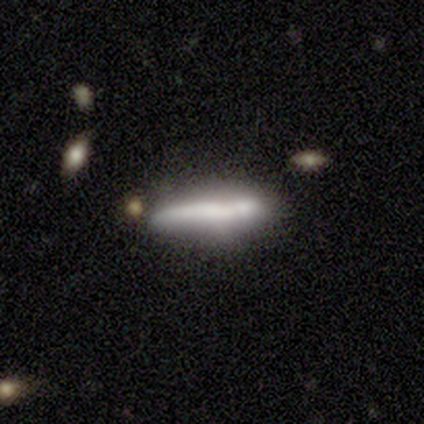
A featured or disk galaxy (80%) viewed edge-on (75%) with no central bulge (67%).

Vote fractions:
- Smooth or featured? featured or disk: 80% / smooth: 20% / star or artifact: 0%
- Edge-on disk? yes: 75% / no: 25%
- Edge-on bulge? none: 67% / boxy: 33% / rounded: 0%
- Merging? none: 60% / minor disturbance: 40% / major disturbance: 0% / merger: 0%